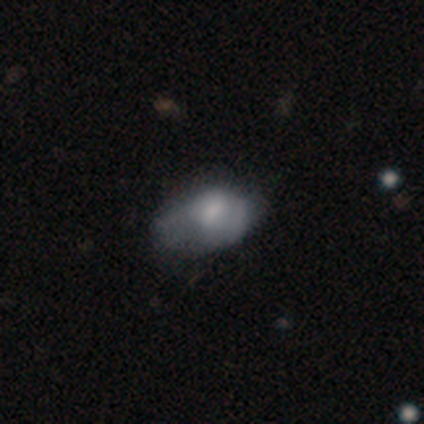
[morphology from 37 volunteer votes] This appears to be a smooth galaxy with no disk features (70%) that is in between round and cigar-shaped (92%). Merging: minor disturbance (43%).